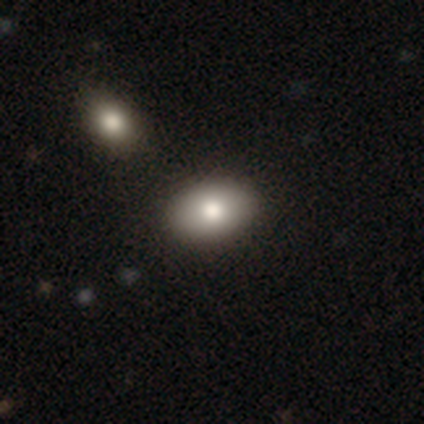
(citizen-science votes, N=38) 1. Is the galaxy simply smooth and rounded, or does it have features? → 92% smooth, 5% featured or disk, 3% star or artifact.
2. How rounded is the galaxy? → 83% in between, 17% round, 0% cigar-shaped.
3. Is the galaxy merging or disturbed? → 70% none, 11% merger, 3% major disturbance, 0% minor disturbance.